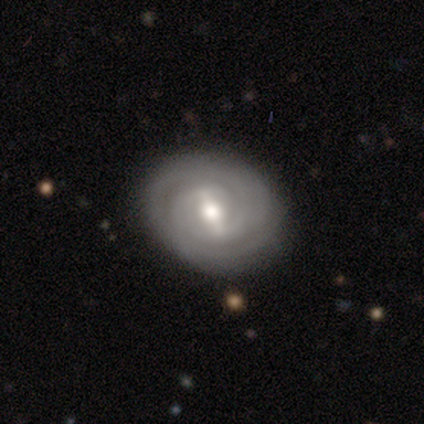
smooth-or-featured: featured or disk: 92% | smooth: 8% | star or artifact: 0%
  disk-edge-on: no: 100% | yes: 0%
    bar: strong: 64% | weak: 28% | no: 8%
    has-spiral-arms: yes: 89% | no: 11%
      spiral-winding: tight: 88% | medium: 9% | loose: 3%
      spiral-arm-count: 2: 44% | can't tell: 34% | 3: 9% | 4: 6% | 1: 3% | more than 4: 3%
    bulge-size: moderate: 69% | large: 22% | small: 6% | dominant: 3% | none: 0%
  merging: none: 51% | major disturbance: 5% | minor disturbance: 0% | merger: 0%